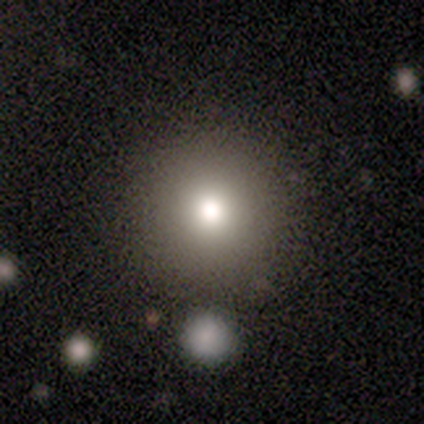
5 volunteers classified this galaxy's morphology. Volunteers were most divided on "smooth or featured": featured or disk: 60%, smooth: 40%, star or artifact: 0%. More confident: edge-on disk — no (100%); bar — no (100%); spiral arms — no (100%); merging — none (80%); bulge size — moderate (67%).